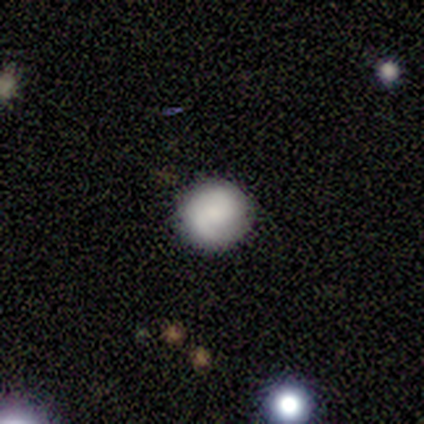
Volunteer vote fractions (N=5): This is clearly a smooth galaxy (100%). How rounded: clearly round (100%). Merging: clearly none (80%).